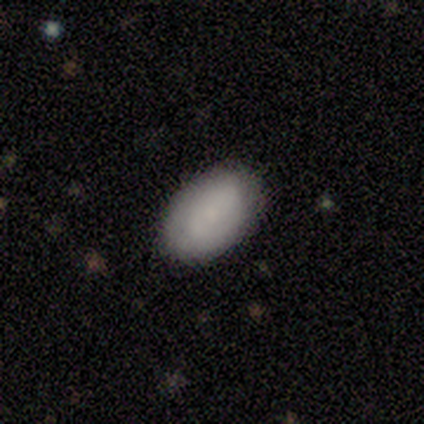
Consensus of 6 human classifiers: This is likely a smooth galaxy (67%). How rounded: clearly in between (100%). Merging: clearly none (80%).